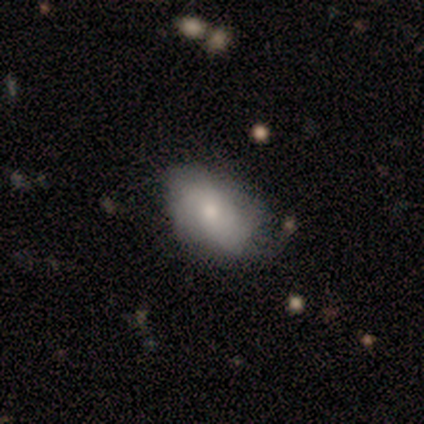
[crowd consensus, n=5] Smooth or featured: smooth — 80% (featured or disk — 20%)
How rounded: in between — 75% (cigar-shaped — 25%)
Merging: none — 60% (minor disturbance — 40%)